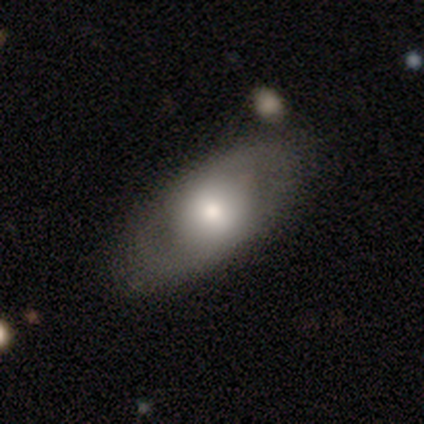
Morphology: type=smooth (60%); roundness=in between (96%); merging=none (76%).